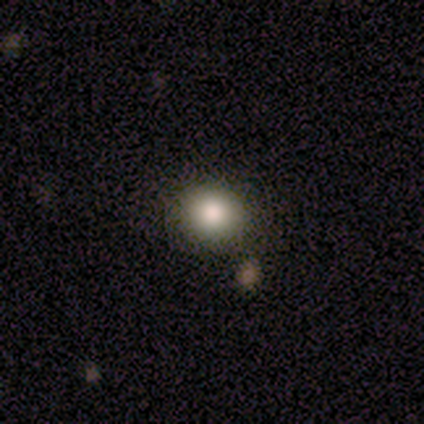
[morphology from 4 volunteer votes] Volunteers were most divided on "smooth or featured": smooth: 75%, star or artifact: 25%, featured or disk: 0%. More confident: how rounded — round (100%); merging — none (100%).